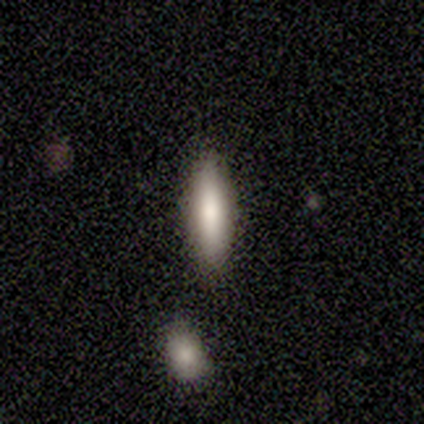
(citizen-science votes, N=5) Overall: smooth (60%; featured or disk 40%). How rounded: cigar-shaped (67%; in between 33%). Merging: none (100%).